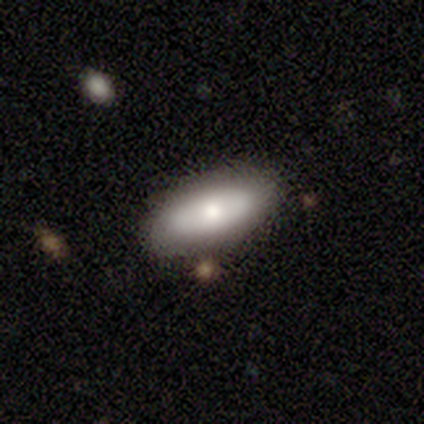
Smooth or featured? 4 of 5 (80%) said smooth. How rounded? 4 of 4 (100%) said in between. Merging? 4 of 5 (80%) said none.